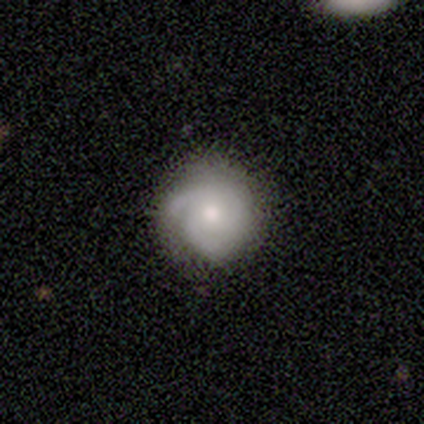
Smooth or featured?
  - smooth: 50% *
  - featured or disk: 25%
  - star or artifact: 25%
How rounded?
  - round: 100% *
  - in between: 0%
  - cigar-shaped: 0%
Merging?
  - minor disturbance: 67% *
  - major disturbance: 33%
  - none: 0%
  - merger: 0%